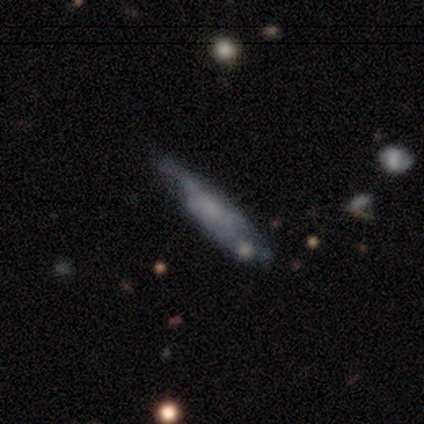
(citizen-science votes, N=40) Smooth or featured? 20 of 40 (50%) said featured or disk. Edge-on disk? 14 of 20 (70%) said no. Bar? 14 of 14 (100%) said no. Spiral arms? 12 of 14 (86%) said no. Bulge size? 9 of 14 (64%) said none. Merging? 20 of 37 (54%) said none.